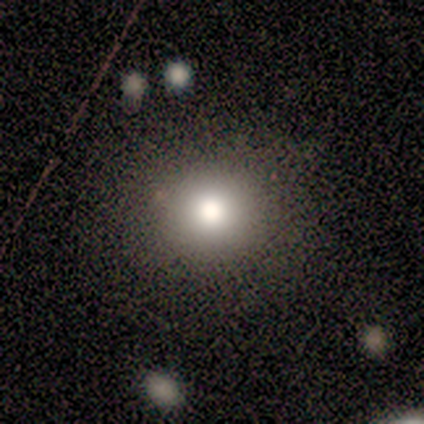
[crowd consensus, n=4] A featured or disk galaxy (50%) with no bar (100%), no spiral arms (100%) and a moderate central bulge (100%). Merging: none (100%).